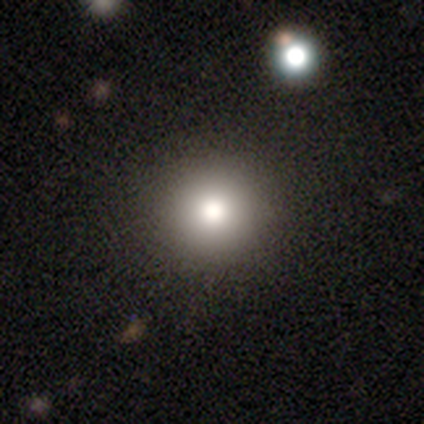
A smooth galaxy with no disk features (78%) that is round (97%). Merging: none (92%).